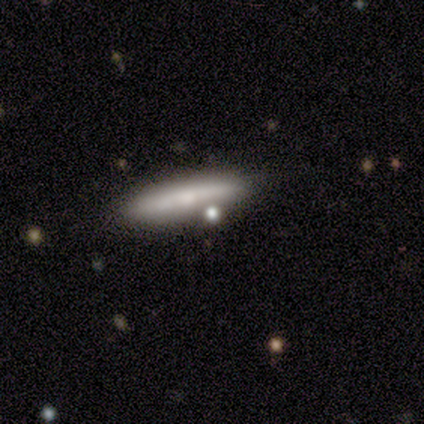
smooth-or-featured: smooth: 80% | featured or disk: 20% | star or artifact: 0%
  how-rounded: cigar-shaped: 75% | in between: 25% | round: 0%
  merging: none: 80% | minor disturbance: 20% | major disturbance: 0% | merger: 0%